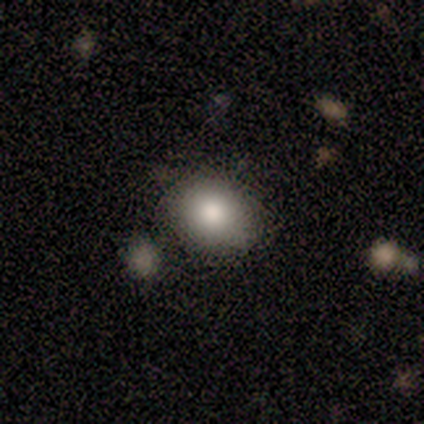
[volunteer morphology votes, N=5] A smooth galaxy with no disk features (100%) that is round (80%).

Vote fractions:
- Smooth or featured? smooth: 100% / featured or disk: 0% / star or artifact: 0%
- How rounded? round: 80% / in between: 20% / cigar-shaped: 0%
- Merging? none: 100% / minor disturbance: 0% / major disturbance: 0% / merger: 0%